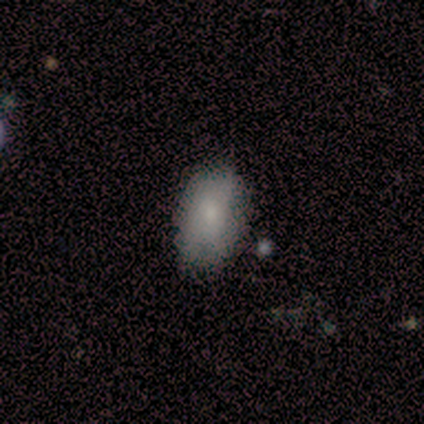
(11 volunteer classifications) Smooth or featured: smooth — 91% (star or artifact — 9%)
How rounded: in between — 100%
Merging: none — 100%